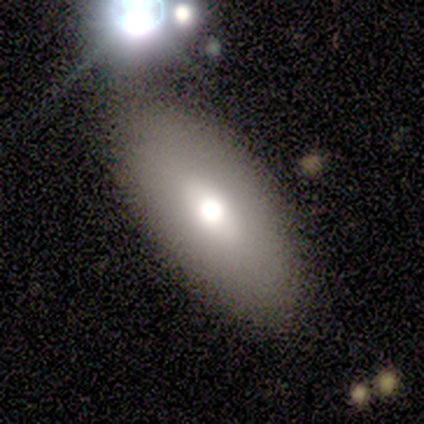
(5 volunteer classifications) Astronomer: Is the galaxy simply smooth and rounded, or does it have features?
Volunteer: smooth — 80%.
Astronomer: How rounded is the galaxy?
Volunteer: in between — 75%.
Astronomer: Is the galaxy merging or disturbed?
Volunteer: none — 60%.